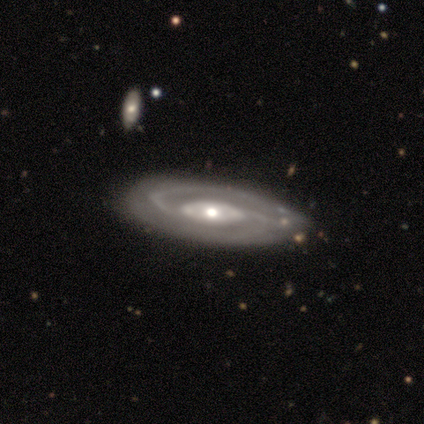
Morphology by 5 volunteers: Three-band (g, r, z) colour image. It shows a featured or disk galaxy (100%) with no bar (50%), 2 (100%) medium (67%) spiral arms (75%) and a moderate central bulge (100%). Merging: none (100%).